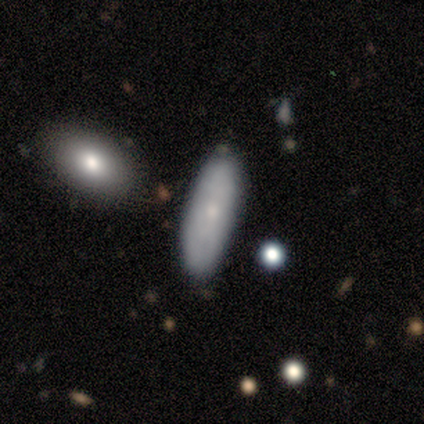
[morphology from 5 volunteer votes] A smooth galaxy with no disk features (100%) that is in between round and cigar-shaped (60%).

Vote fractions:
- Smooth or featured? smooth: 100% / featured or disk: 0% / star or artifact: 0%
- How rounded? in between: 60% / cigar-shaped: 40% / round: 0%
- Merging? none: 100% / minor disturbance: 0% / major disturbance: 0% / merger: 0%